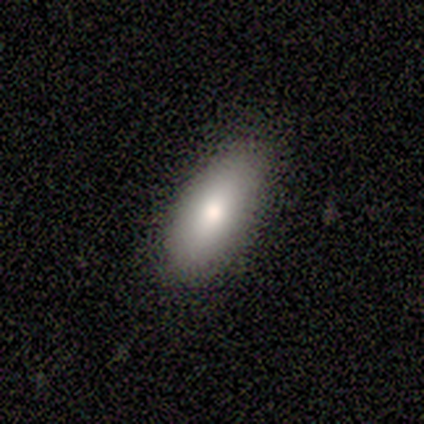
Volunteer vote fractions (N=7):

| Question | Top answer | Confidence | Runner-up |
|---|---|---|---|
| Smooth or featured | smooth | 71% | featured or disk (14%) |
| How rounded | in between | 100% | — |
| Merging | none | 83% | minor disturbance (17%) |